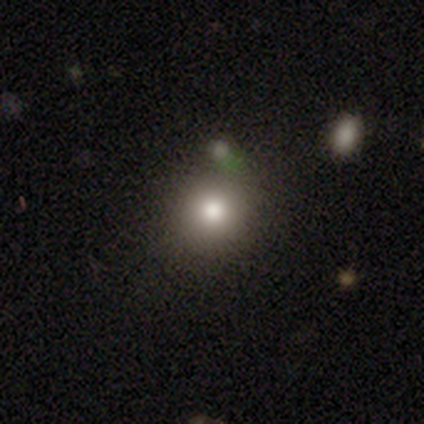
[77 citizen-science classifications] Smooth or featured? smooth (81%)
How rounded? round (90%)
Merging? none (53%)